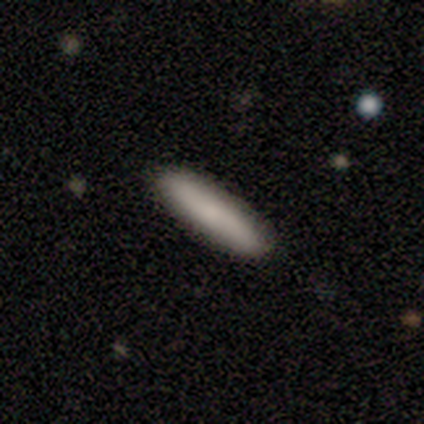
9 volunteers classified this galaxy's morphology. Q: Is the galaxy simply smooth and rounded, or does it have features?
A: smooth — 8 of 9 (89%).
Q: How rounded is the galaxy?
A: cigar-shaped — 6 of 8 (75%).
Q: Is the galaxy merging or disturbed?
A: none — 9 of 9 (100%).